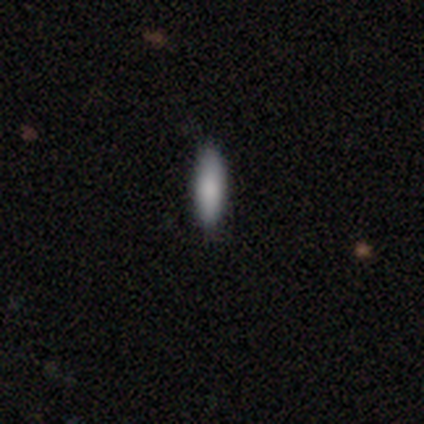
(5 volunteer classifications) Volunteers were most divided on "how rounded": cigar-shaped: 60%, in between: 40%, round: 0%. More confident: smooth or featured — smooth (100%); merging — none (80%).